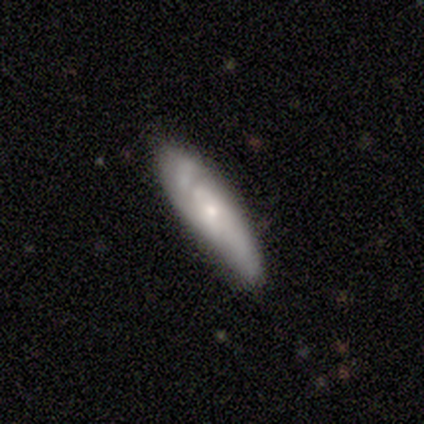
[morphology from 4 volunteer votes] smooth 50% (tied), featured or disk 50% (tied), star or artifact 0%. Down the decision tree: how rounded — in between (50%, tied with cigar-shaped); merging — none (100%).